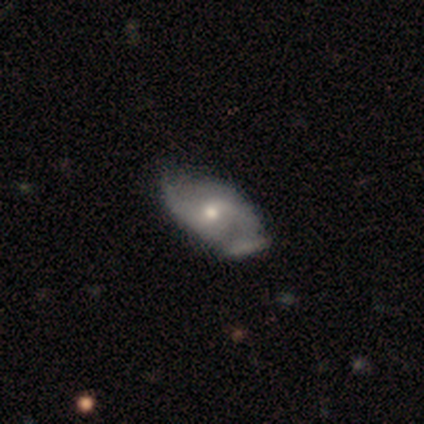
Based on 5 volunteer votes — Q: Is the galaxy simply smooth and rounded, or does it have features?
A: featured or disk — 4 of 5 (80%).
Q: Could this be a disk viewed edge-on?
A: no — 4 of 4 (100%).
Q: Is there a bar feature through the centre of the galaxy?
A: no — 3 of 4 (75%).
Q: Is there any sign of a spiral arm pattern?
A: yes — 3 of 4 (75%).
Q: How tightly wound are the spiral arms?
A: loose — 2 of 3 (67%).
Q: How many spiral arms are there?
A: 2 — 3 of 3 (100%).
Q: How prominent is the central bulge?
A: moderate — 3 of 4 (75%).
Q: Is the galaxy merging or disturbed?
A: none — 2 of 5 (40%, tied with minor disturbance).